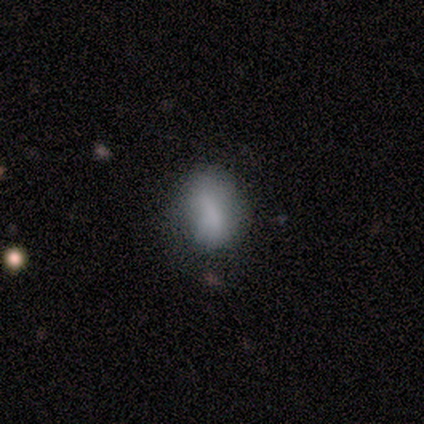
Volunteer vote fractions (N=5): This is likely a smooth galaxy (60%). How rounded: likely in between (67%). Merging: possibly none (50%, tied with minor disturbance).